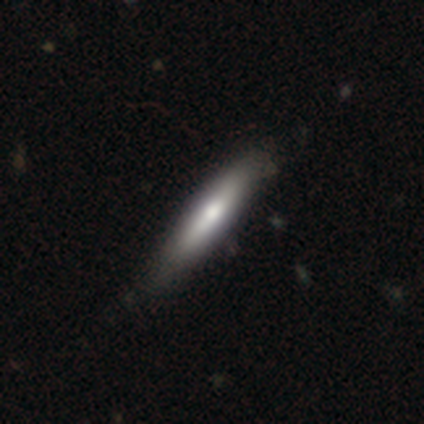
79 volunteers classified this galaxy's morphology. smooth_or_featured: smooth (p=0.78) [alt: featured or disk p=0.18]
how_rounded: cigar-shaped (p=0.82) [alt: in between p=0.18]
merging: none (p=0.34) [alt: minor disturbance p=0.14]